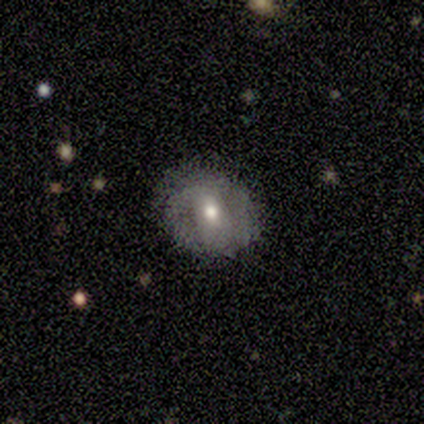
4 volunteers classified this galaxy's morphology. Volunteers were most divided on "smooth or featured" (2-way tie): smooth: 50%, featured or disk: 50%, star or artifact: 0%; "merging" (2-way tie): none: 50%, minor disturbance: 50%, major disturbance: 0%, merger: 0%. More confident: how rounded — round (100%).